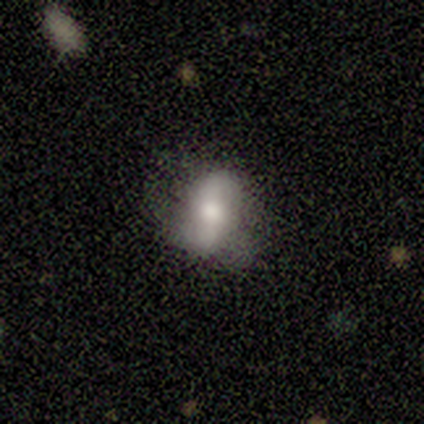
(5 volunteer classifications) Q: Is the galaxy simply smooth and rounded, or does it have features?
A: smooth — 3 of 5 (60%).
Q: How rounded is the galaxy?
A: in between — 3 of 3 (100%).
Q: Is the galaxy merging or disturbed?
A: none — 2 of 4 (50%).